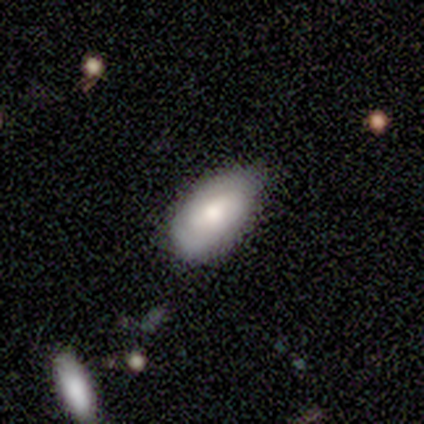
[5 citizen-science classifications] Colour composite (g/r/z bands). It shows a smooth galaxy with no disk features (60%) that is in between round and cigar-shaped (100%). Merging: none (60%).